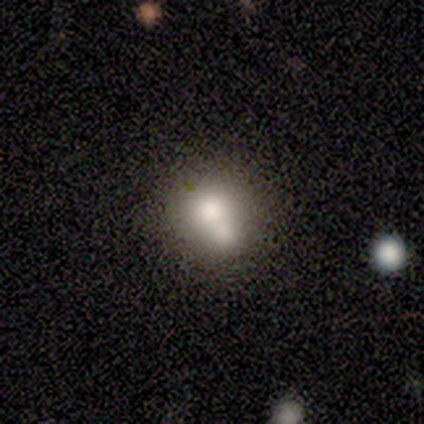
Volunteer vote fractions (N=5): A smooth galaxy with no disk features (60%) that is in between round and cigar-shaped (67%). Merging: merger (60%).